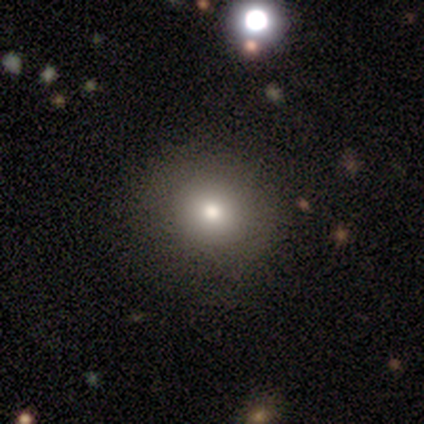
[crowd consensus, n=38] A smooth galaxy with no disk features (84%) that is round (84%).

Vote fractions:
- Smooth or featured? smooth: 84% / featured or disk: 11% / star or artifact: 5%
- How rounded? round: 84% / in between: 16% / cigar-shaped: 0%
- Merging? none: 86% / minor disturbance: 6% / major disturbance: 6% / merger: 3%